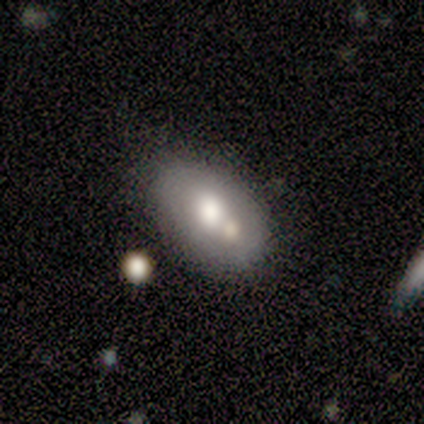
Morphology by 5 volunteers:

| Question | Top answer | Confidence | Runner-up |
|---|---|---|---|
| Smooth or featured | smooth | 80% | featured or disk (20%) |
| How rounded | in between | 100% | — |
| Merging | none | 40% | tied: minor disturbance (40%) |